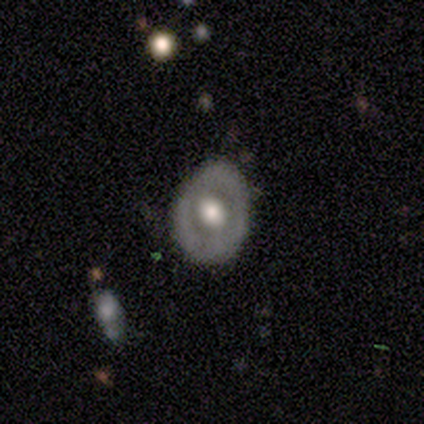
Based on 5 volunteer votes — Smooth or featured?
  - featured or disk: 80% *
  - smooth: 20%
  - star or artifact: 0%
Edge-on disk?
  - no: 100% *
  - yes: 0%
Bar?
  - no: 100% *
  - strong: 0%
  - weak: 0%
Spiral arms?
  - no: 100% *
  - yes: 0%
Bulge size?
  - moderate: 50% *
  - large: 25%
  - small: 25%
  - dominant: 0%
  - none: 0%
Merging?
  - none: 60% *
  - minor disturbance: 40%
  - major disturbance: 0%
  - merger: 0%